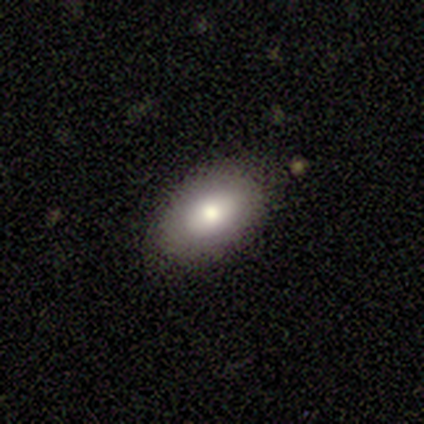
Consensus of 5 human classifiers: smooth 80%, featured or disk 20%, star or artifact 0%. Down the decision tree: how rounded — in between (100%); merging — none (80%).